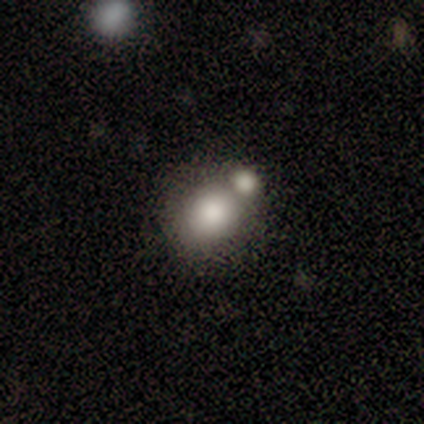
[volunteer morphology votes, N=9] Smooth or featured? star or artifact (44%)